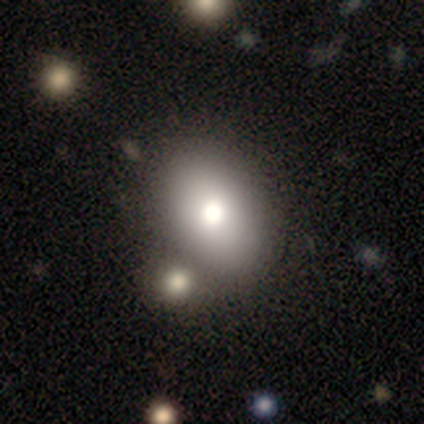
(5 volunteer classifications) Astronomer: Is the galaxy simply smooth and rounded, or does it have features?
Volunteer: smooth — 80%.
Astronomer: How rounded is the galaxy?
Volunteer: round — 50%, tied with in between at 50%.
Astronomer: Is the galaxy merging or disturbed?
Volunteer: none — 80%.